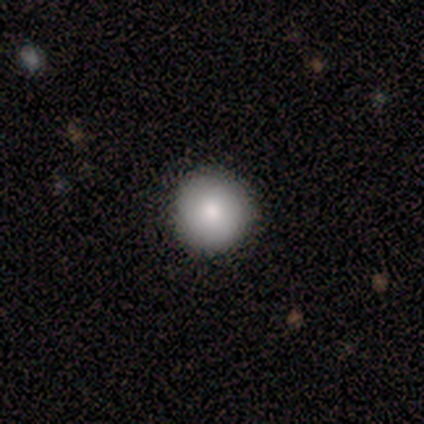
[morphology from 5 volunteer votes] A smooth galaxy with no disk features (100%) that is round (100%). Merging: none (100%).